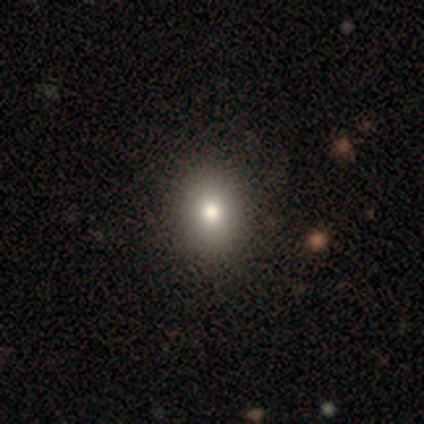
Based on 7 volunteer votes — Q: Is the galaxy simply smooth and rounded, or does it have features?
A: smooth — 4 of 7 (57%).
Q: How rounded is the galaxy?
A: in between — 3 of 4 (75%).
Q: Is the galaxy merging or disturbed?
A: none — 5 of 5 (100%).